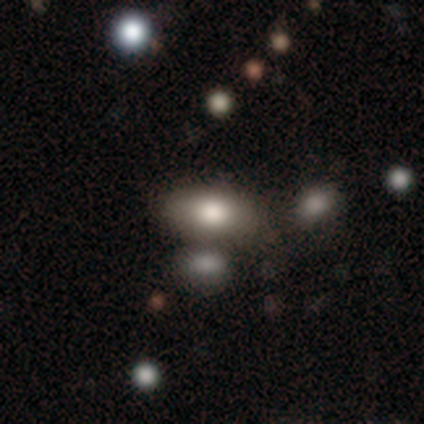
Morphology: type=smooth (100%); roundness=in between (100%); merging=none (75%).